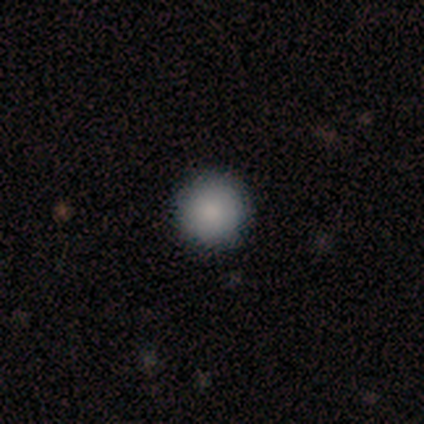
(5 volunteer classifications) A smooth galaxy with no disk features (80%) that is round (100%).

Vote fractions:
- Smooth or featured? smooth: 80% / star or artifact: 20% / featured or disk: 0%
- How rounded? round: 100% / in between: 0% / cigar-shaped: 0%
- Merging? none: 100% / minor disturbance: 0% / major disturbance: 0% / merger: 0%